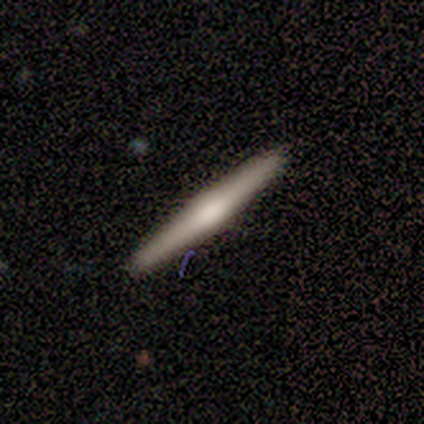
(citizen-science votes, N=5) smooth_or_featured: featured or disk (p=0.80) [alt: smooth p=0.20]
disk_edge_on: yes (p=1.00)
edge_on_bulge: rounded (p=1.00)
merging: none (p=0.80) [alt: minor disturbance p=0.20]